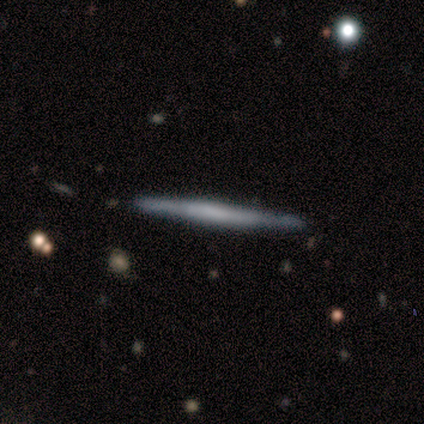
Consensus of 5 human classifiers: Smooth or featured? featured or disk (60%)
Edge-on disk? yes (100%)
Edge-on bulge? none (67%)
Merging? none (80%)